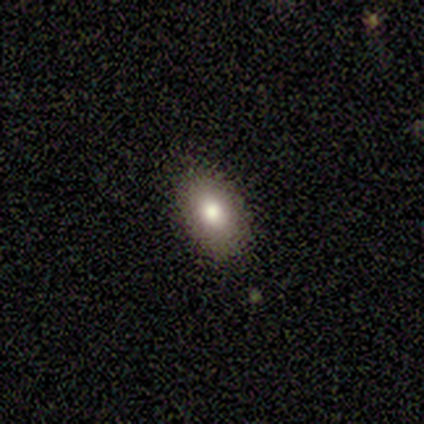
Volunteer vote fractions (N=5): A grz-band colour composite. It shows a smooth galaxy with no disk features (80%) that is in between round and cigar-shaped (100%). Merging: none (100%).